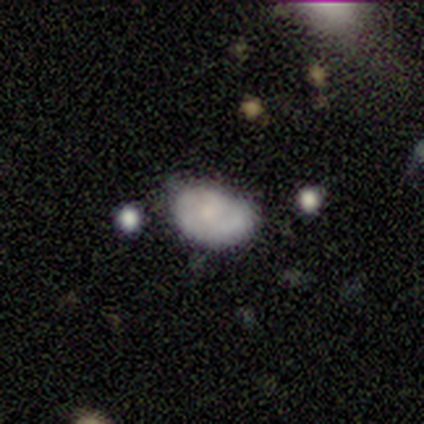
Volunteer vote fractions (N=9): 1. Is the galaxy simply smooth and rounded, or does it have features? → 67% smooth, 22% featured or disk, 11% star or artifact.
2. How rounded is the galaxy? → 83% in between, 17% round, 0% cigar-shaped.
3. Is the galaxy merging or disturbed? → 50% minor disturbance, 38% none, 12% major disturbance, 0% merger.